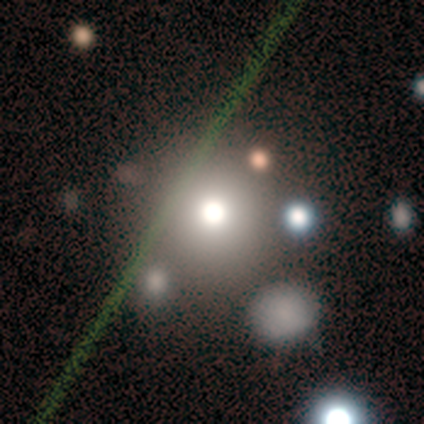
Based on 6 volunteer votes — Smooth or featured? 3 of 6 (50%) said smooth. How rounded? 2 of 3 (67%) said round. Merging? 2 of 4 (50%) said none.